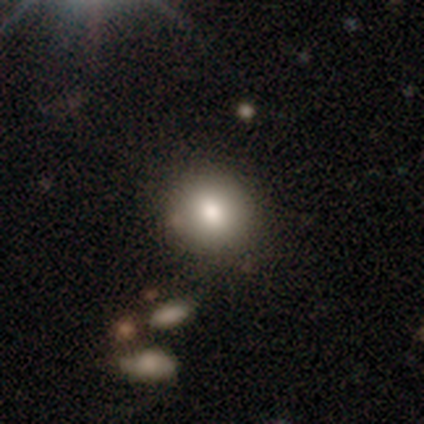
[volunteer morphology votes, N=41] Smooth or featured? smooth (76%)
How rounded? round (87%)
Merging? none (75%)